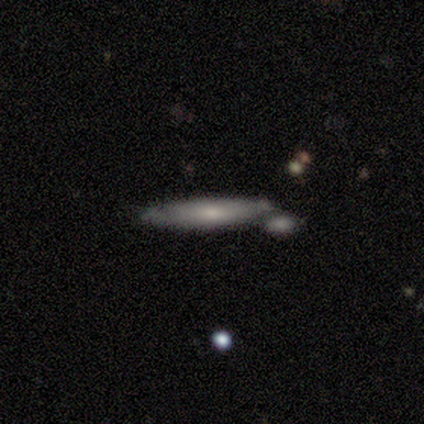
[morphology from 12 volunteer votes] smooth_or_featured: smooth (p=0.50) [tied with: featured or disk p=0.50]
how_rounded: cigar-shaped (p=1.00)
merging: none (p=0.67) [alt: minor disturbance p=0.17]